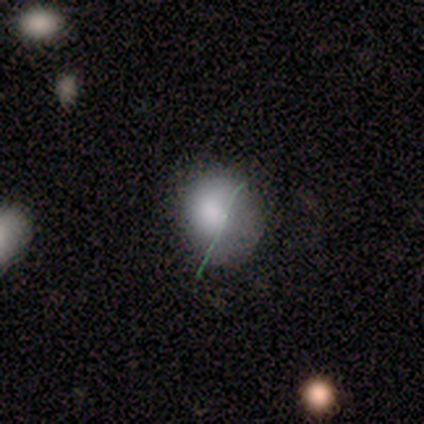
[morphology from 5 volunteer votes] Smooth or featured? smooth (60%)
How rounded? round (67%)
Merging? minor disturbance (67%)